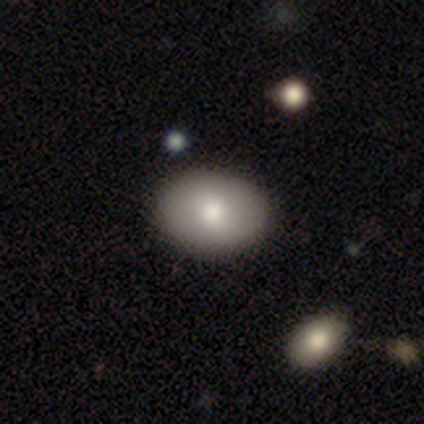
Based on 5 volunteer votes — A smooth galaxy with no disk features (80%) that is in between round and cigar-shaped (100%).

Vote fractions:
- Smooth or featured? smooth: 80% / featured or disk: 20% / star or artifact: 0%
- How rounded? in between: 100% / round: 0% / cigar-shaped: 0%
- Merging? none: 100% / minor disturbance: 0% / major disturbance: 0% / merger: 0%